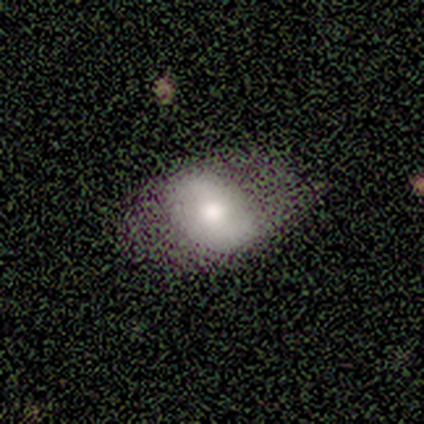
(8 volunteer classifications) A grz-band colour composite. It shows a smooth galaxy with no disk features (88%) that is in between round and cigar-shaped (86%). Merging: none (62%).